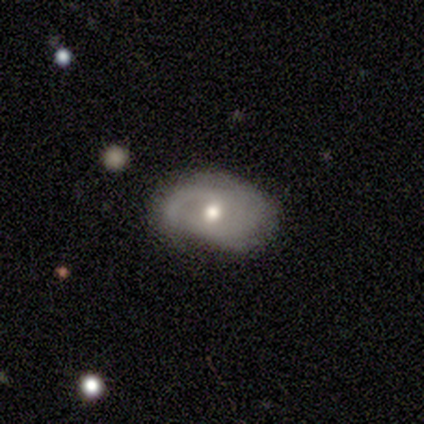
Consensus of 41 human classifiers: featured or disk 66%, smooth 32%, star or artifact 2%. Down the decision tree: edge-on disk — no (100%); bar — no (59%); spiral arms — yes (74%); spiral arm count — 2 (45%); spiral winding — medium (55%); bulge size — moderate (81%); merging — none (55%).